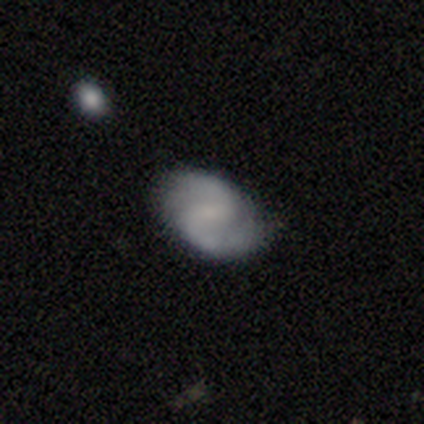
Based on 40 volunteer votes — A featured or disk galaxy (75%) with a weak bar (60%), 2 (96%) medium (70%) spiral arms (90%) and no central bulge (43%). Merging: none (89%).